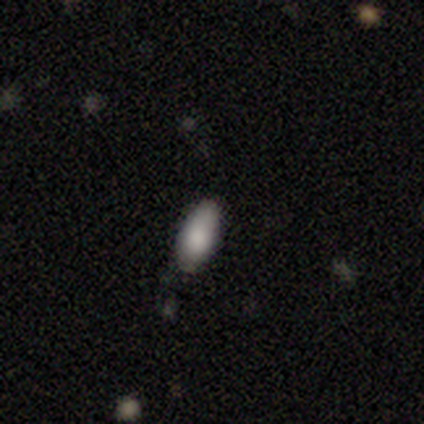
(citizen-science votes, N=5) Smooth or featured?
  - smooth: 100% *
  - featured or disk: 0%
  - star or artifact: 0%
How rounded?
  - in between: 100% *
  - round: 0%
  - cigar-shaped: 0%
Merging?
  - minor disturbance: 60% *
  - none: 40%
  - major disturbance: 0%
  - merger: 0%